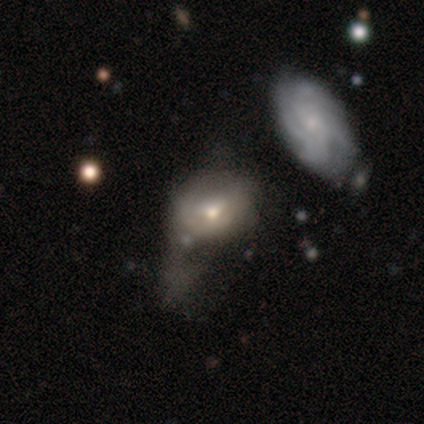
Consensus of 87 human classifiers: Overall: smooth (52%; featured or disk 46%). How rounded: in between (76%). Merging: major disturbance (52%; minor disturbance 24%).